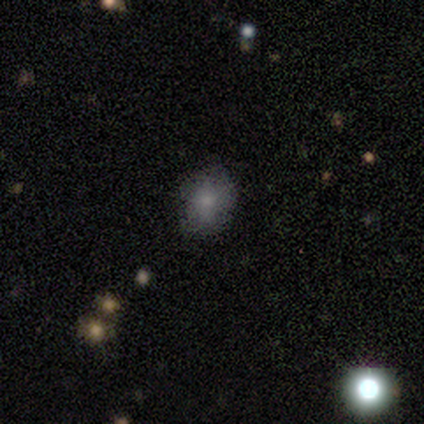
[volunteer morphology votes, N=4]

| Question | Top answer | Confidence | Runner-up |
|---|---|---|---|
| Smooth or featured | smooth | 75% | star or artifact (25%) |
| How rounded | round | 67% | in between (33%) |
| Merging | none | 100% | — |